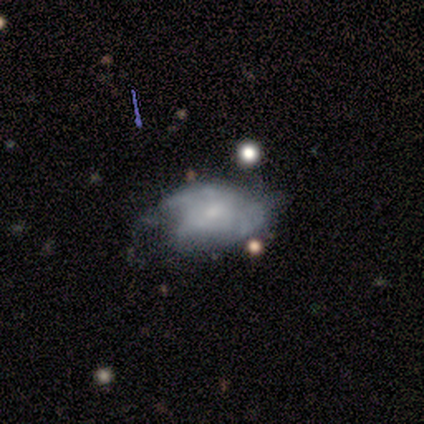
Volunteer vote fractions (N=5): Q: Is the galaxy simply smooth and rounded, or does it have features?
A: featured or disk — 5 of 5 (100%).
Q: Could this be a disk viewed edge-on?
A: no — 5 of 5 (100%).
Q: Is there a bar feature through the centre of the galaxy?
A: no — 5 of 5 (100%).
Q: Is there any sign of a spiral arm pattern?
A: yes — 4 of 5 (80%).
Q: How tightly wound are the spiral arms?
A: tight — 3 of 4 (75%).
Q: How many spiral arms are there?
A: can't tell — 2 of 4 (50%).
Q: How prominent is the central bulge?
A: small — 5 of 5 (100%).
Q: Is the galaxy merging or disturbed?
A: none — 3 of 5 (60%).